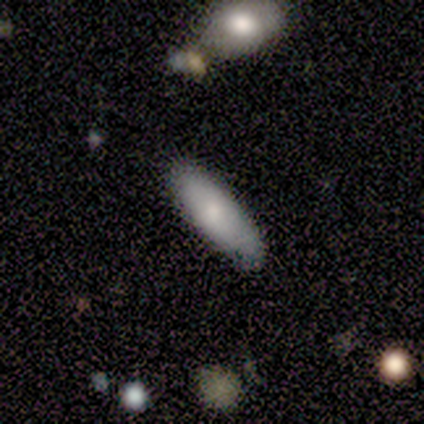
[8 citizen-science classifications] This appears to be a smooth galaxy with no disk features (88%) that is cigar-shaped (57%). Merging: none (71%).